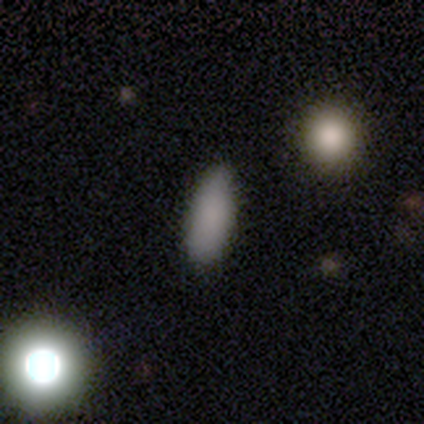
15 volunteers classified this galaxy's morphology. Smooth or featured? smooth (93%)
How rounded? in between (93%)
Merging? none (86%)